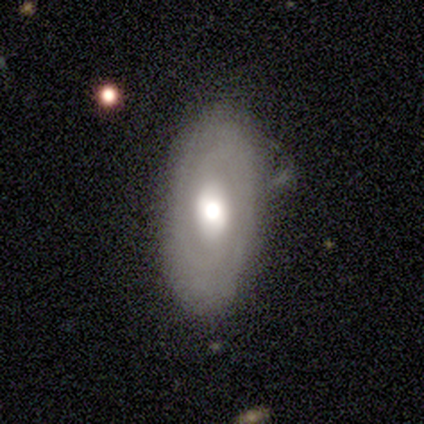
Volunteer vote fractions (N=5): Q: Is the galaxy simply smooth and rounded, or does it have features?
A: featured or disk — 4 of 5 (80%).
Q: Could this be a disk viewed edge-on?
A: no — 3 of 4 (75%).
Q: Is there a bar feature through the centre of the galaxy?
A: no — 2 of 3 (67%).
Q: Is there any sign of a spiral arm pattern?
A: yes — 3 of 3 (100%).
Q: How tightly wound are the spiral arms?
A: medium — 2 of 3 (67%).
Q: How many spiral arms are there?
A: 2 — 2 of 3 (67%).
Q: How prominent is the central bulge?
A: moderate — 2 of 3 (67%).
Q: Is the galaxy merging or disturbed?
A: none — 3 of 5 (60%).